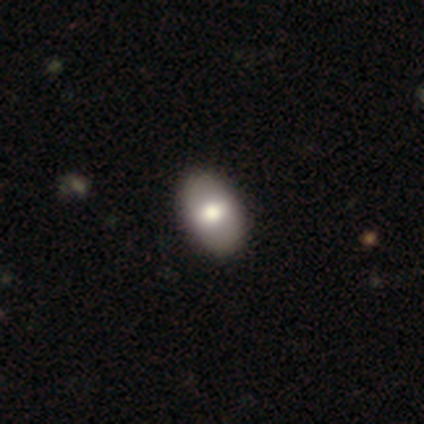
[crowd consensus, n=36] Smooth or featured? 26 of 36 (72%) said smooth. How rounded? 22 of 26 (85%) said in between. Merging? 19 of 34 (56%) said none.